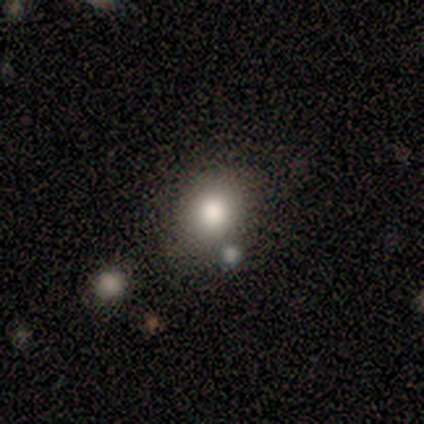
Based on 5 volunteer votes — smooth-or-featured: smooth: 80% | star or artifact: 20% | featured or disk: 0%
  how-rounded: in between: 75% | round: 25% | cigar-shaped: 0%
  merging: minor disturbance: 75% | none: 25% | major disturbance: 0% | merger: 0%